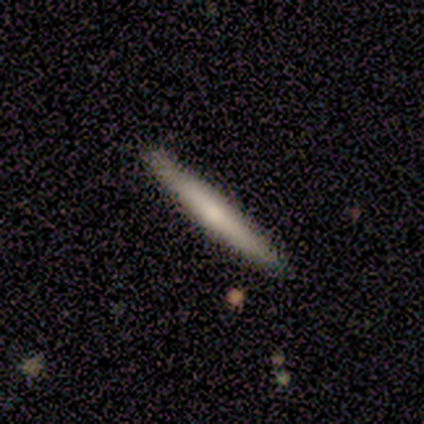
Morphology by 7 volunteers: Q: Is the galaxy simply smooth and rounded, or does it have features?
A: featured or disk — 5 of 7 (71%).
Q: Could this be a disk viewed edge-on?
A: yes — 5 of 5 (100%).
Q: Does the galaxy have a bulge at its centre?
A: none — 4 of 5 (80%).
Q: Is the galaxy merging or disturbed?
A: none — 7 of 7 (100%).